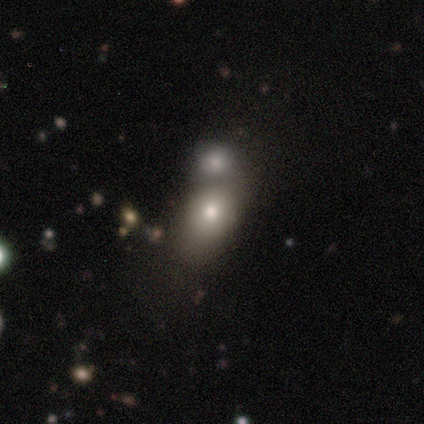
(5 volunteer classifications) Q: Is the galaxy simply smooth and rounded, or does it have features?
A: smooth — 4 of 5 (80%).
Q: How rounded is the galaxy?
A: round — 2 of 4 (50%, tied with in between).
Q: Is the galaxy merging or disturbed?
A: merger — 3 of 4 (75%).